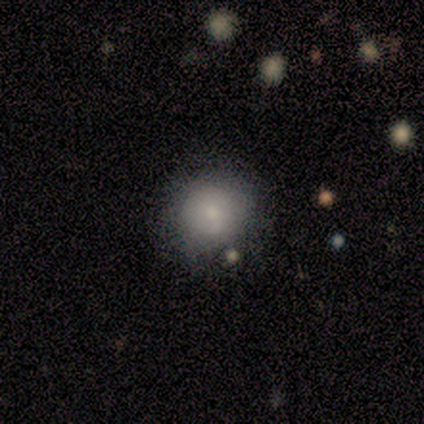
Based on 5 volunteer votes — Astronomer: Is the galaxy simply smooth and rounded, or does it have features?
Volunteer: smooth — 100%.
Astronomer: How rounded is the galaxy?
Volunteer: round — 100%.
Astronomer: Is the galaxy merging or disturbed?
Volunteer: none — 40%, tied with minor disturbance at 40%.